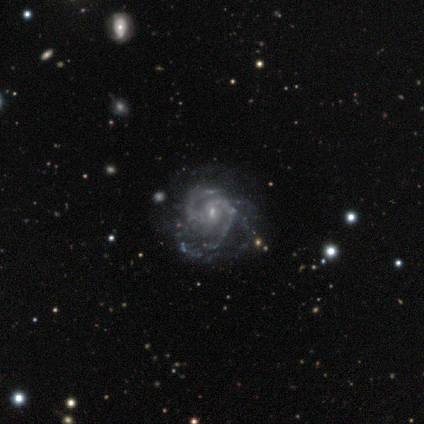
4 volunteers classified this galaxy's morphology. A featured or disk galaxy (100%) with a weak bar (50%), 2 (50%) medium (75%) spiral arms (100%) and a moderate central bulge (100%). Merging: none (100%).